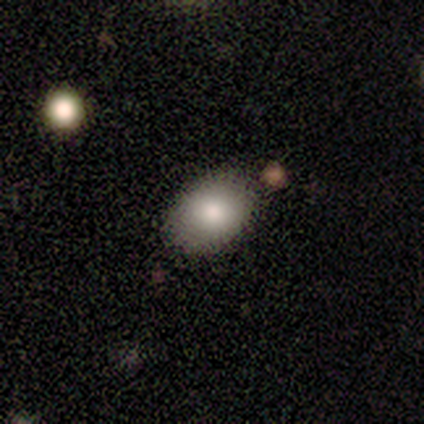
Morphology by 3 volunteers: This appears to be a smooth galaxy with no disk features (100%) that is in between round and cigar-shaped (67%). Merging: none (100%).